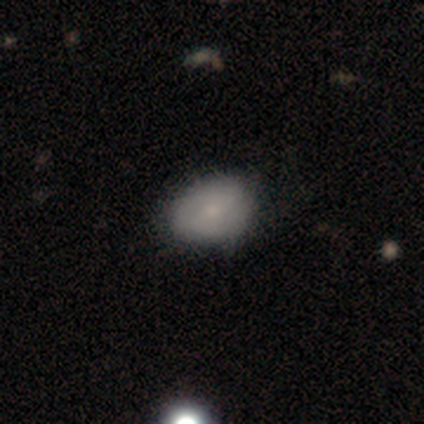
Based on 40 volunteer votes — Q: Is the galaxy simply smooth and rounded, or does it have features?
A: smooth — 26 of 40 (65%).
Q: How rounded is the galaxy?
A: in between — 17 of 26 (65%).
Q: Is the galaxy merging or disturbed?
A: none — 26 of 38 (68%).